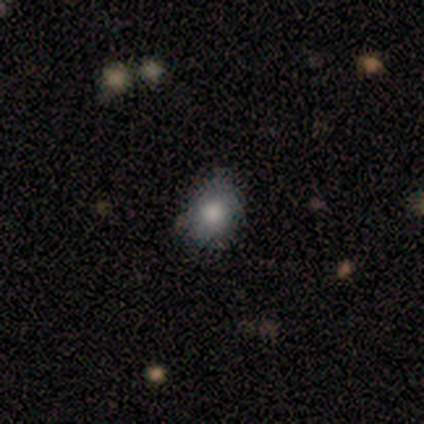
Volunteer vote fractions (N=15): Smooth or featured: smooth — 80% (star or artifact — 13%)
How rounded: round — 75% (in between — 25%)
Merging: none — 69% (minor disturbance — 23%)